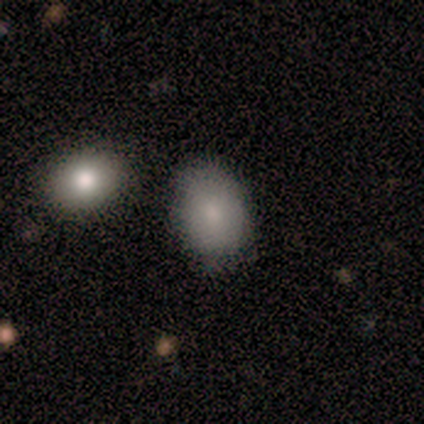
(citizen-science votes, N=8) Smooth or featured: smooth — 100%
How rounded: in between — 88% (round — 12%)
Merging: none — 75% (merger — 25%)